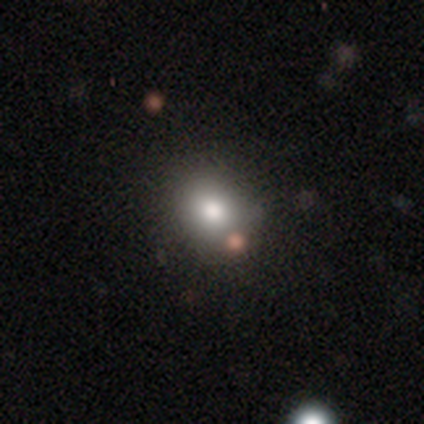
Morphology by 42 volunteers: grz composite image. It shows a smooth galaxy with no disk features (74%) that is round (71%). Merging: none (83%).